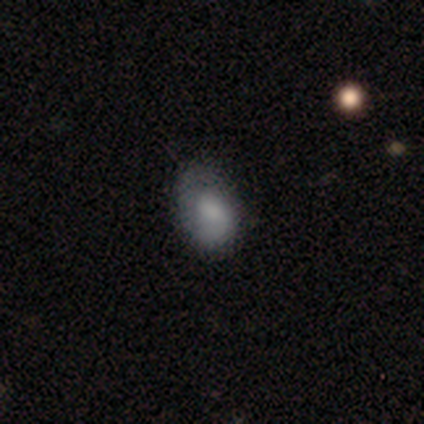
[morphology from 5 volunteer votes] Smooth or featured?
  - smooth: 60% *
  - featured or disk: 40%
  - star or artifact: 0%
How rounded?
  - in between: 67% *
  - cigar-shaped: 33%
  - round: 0%
Merging?
  - minor disturbance: 40% *
  - none: 20%
  - major disturbance: 20%
  - merger: 20%